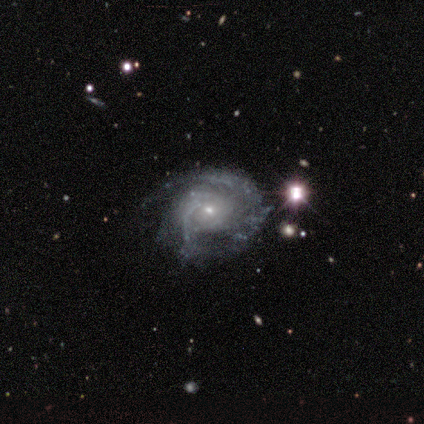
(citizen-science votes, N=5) Overall: featured or disk (100%). Edge-on disk: no (100%). Bar: no (80%). Spiral arms: yes (80%). Spiral arm count: 2 (75%). Spiral winding: tight (75%). Bulge size: small (100%). Merging: none (60%; minor disturbance 20%).